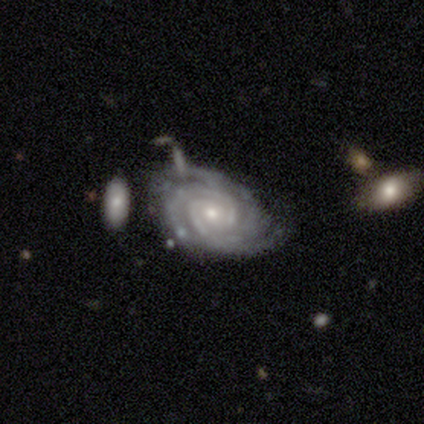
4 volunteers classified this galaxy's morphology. Smooth or featured?
  - featured or disk: 100% *
  - smooth: 0%
  - star or artifact: 0%
Edge-on disk?
  - no: 100% *
  - yes: 0%
Bar?
  - no: 75% *
  - weak: 25%
  - strong: 0%
Spiral arms?
  - yes: 100% *
  - no: 0%
Spiral winding?
  - tight: 100% *
  - medium: 0%
  - loose: 0%
Spiral arm count?
  - 2: 75% *
  - 3: 25%
  - 1: 0%
  - 4: 0%
  - more than 4: 0%
  - can't tell: 0%
Bulge size?
  - small: 100% *
  - dominant: 0%
  - large: 0%
  - moderate: 0%
  - none: 0%
Merging?
  - none: 75% *
  - minor disturbance: 25%
  - major disturbance: 0%
  - merger: 0%